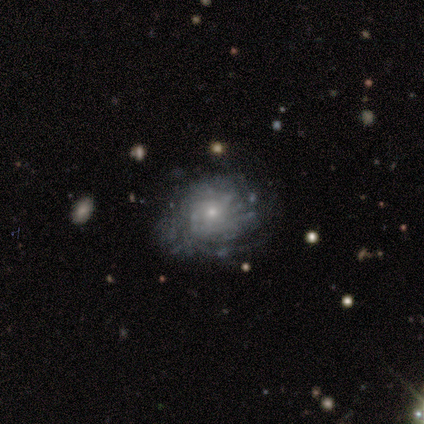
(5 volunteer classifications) Overall: featured or disk (80%). Edge-on disk: no (100%). Bar: no (75%). Spiral arms: yes (100%). Spiral arm count: can't tell (75%). Spiral winding: medium (50%; tight 25%). Bulge size: small (75%). Merging: none (60%; minor disturbance 20%).